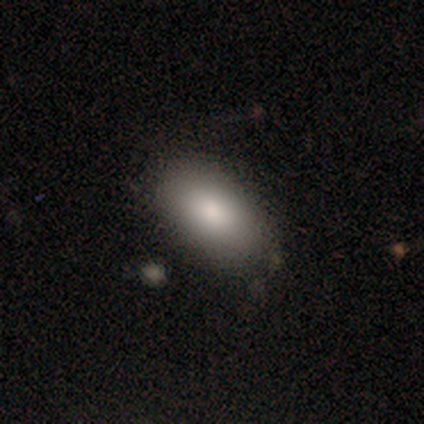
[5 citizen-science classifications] smooth-or-featured: smooth: 80% | featured or disk: 20% | star or artifact: 0%
  how-rounded: in between: 100% | round: 0% | cigar-shaped: 0%
  merging: none: 80% | merger: 20% | minor disturbance: 0% | major disturbance: 0%